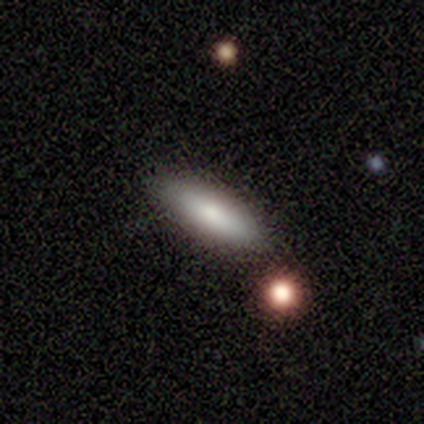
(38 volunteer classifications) smooth 76%, featured or disk 18%, star or artifact 5%. Down the decision tree: how rounded — in between (52%); merging — none (83%).